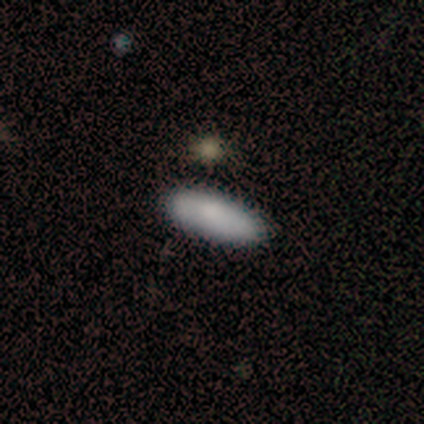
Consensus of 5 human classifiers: Smooth or featured?
  - smooth: 80% *
  - featured or disk: 20%
  - star or artifact: 0%
How rounded?
  - cigar-shaped: 75% *
  - in between: 25%
  - round: 0%
Merging?
  - minor disturbance: 80% *
  - none: 20%
  - major disturbance: 0%
  - merger: 0%